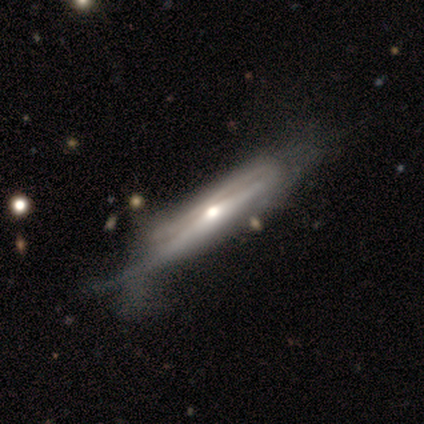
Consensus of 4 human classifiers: smooth_or_featured: smooth (p=0.50) [tied with: featured or disk p=0.50]
how_rounded: cigar-shaped (p=1.00)
merging: minor disturbance (p=0.75) [alt: major disturbance p=0.25]